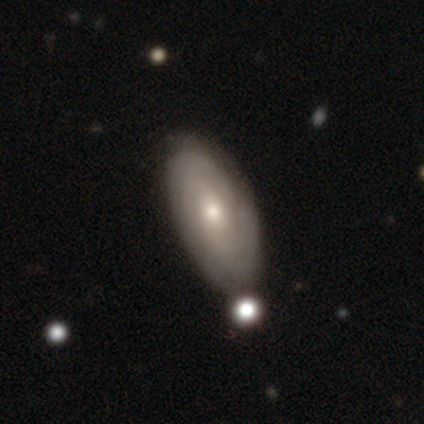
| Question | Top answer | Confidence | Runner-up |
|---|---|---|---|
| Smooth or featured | featured or disk | 60% | smooth (30%) |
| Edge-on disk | no | 88% | yes (12%) |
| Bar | no | 71% | weak (24%) |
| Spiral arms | yes | 90% | no (10%) |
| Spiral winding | tight | 63% | medium (32%) |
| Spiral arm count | can't tell | 58% | 2 (26%) |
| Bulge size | moderate | 67% | small (24%) |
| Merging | none | 69% | minor disturbance (19%) |